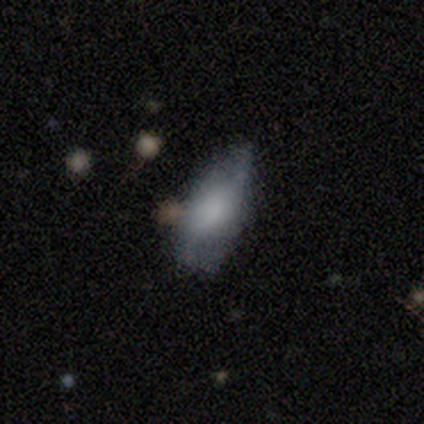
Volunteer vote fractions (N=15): This appears to be a smooth galaxy with no disk features (67%) that is in between round and cigar-shaped (80%). Merging: none (53%).